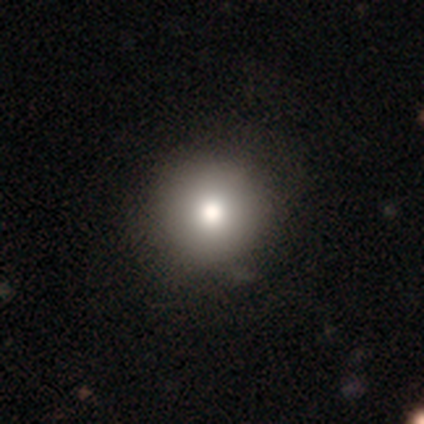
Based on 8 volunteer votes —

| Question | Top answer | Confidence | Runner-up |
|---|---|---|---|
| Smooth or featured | smooth | 88% | star or artifact (12%) |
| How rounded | round | 100% | — |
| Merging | none | 43% | tied: minor disturbance (43%) |